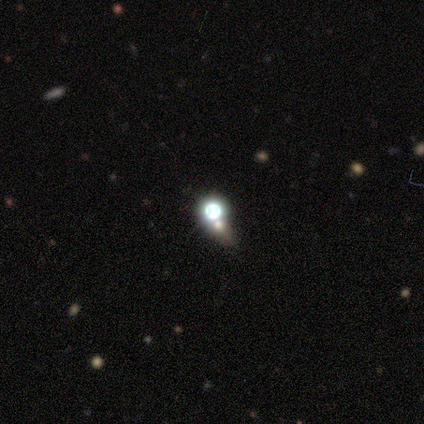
Q: Smooth or featured?
A: star or artifact (60%); runner-up: smooth (20%)